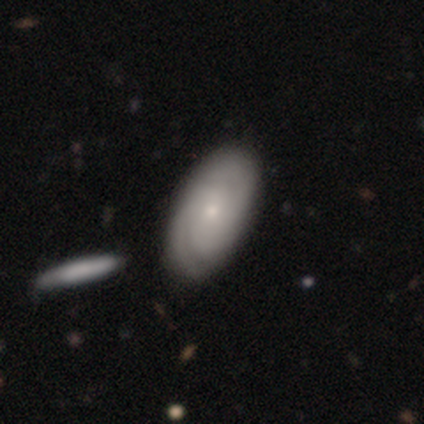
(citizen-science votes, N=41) This is likely a featured or disk galaxy (66%). It is clearly not viewed edge-on (93%). Bar: clearly no (92%). Spiral arm pattern: clearly yes (88%). Spiral arm count: possibly can't tell (50%). Spiral winding: possibly tight (55%). Central bulge: likely small (76%). Merging: possibly none (57%).